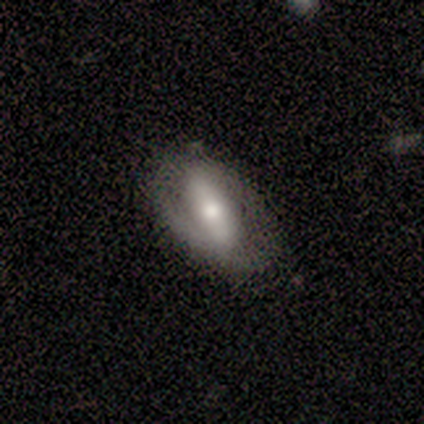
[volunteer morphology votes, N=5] Volunteers were most divided on "spiral arms": no: 67%, yes: 33%. More confident: edge-on disk — no (100%); bar — strong (100%); merging — none (75%); bulge size — small (67%); smooth or featured — featured or disk (60%).